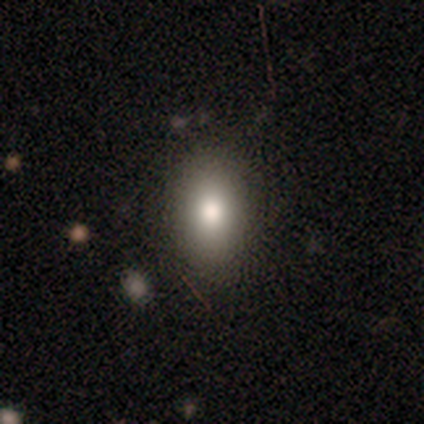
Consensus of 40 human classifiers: This appears to be a smooth galaxy with no disk features (82%) that is in between round and cigar-shaped (82%). Merging: none (86%).